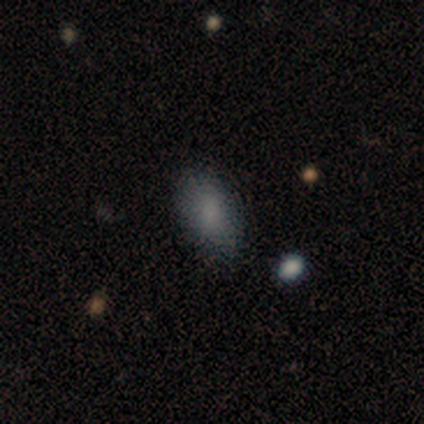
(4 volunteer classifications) smooth-or-featured: smooth: 100% | featured or disk: 0% | star or artifact: 0%
  how-rounded: in between: 100% | round: 0% | cigar-shaped: 0%
  merging: none: 100% | minor disturbance: 0% | major disturbance: 0% | merger: 0%